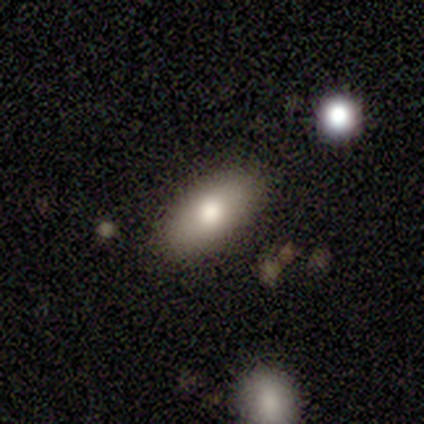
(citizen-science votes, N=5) Smooth or featured?
  - featured or disk: 60% *
  - smooth: 40%
  - star or artifact: 0%
Edge-on disk?
  - no: 67% *
  - yes: 33%
Bar?
  - no: 100% *
  - strong: 0%
  - weak: 0%
Spiral arms?
  - no: 100% *
  - yes: 0%
Bulge size?
  - large: 50% * (tied)
  - moderate: 50% * (tied)
  - dominant: 0%
  - small: 0%
  - none: 0%
Merging?
  - none: 80% *
  - minor disturbance: 20%
  - major disturbance: 0%
  - merger: 0%